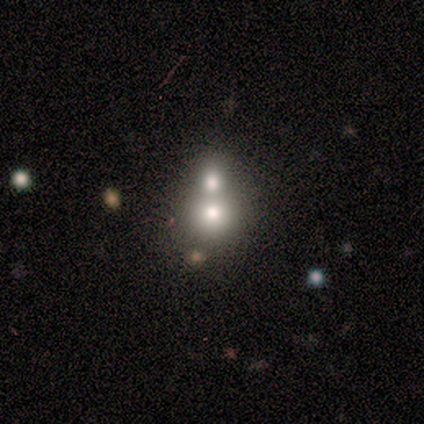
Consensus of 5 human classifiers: smooth 40% (tied), star or artifact 40% (tied), featured or disk 20%. Down the decision tree: how rounded — in between (100%); merging — merger (100%).